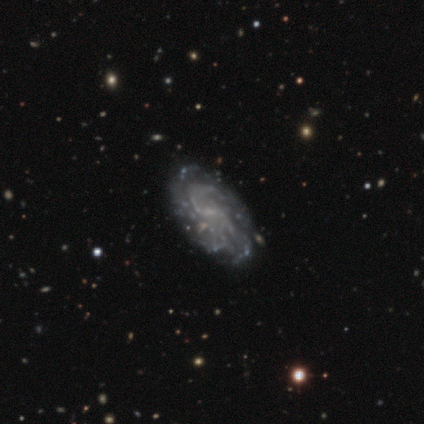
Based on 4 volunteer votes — Smooth or featured: featured or disk — 75% (smooth — 25%)
Edge-on disk: no — 100%
Bar: no — 67% (weak — 33%)
Spiral arms: yes — 67% (no — 33%)
Spiral winding: tight — 50% (tied with loose — 50%)
Spiral arm count: 2 — 50% (tied with can't tell — 50%)
Bulge size: none — 67% (moderate — 33%)
Merging: none — 100%